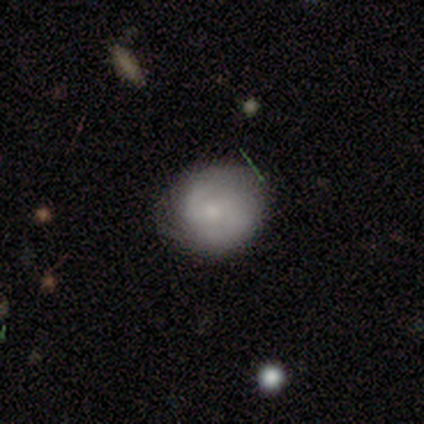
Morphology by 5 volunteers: Smooth or featured?
  - smooth: 60% *
  - featured or disk: 40%
  - star or artifact: 0%
How rounded?
  - round: 100% *
  - in between: 0%
  - cigar-shaped: 0%
Merging?
  - none: 60% *
  - minor disturbance: 40%
  - major disturbance: 0%
  - merger: 0%